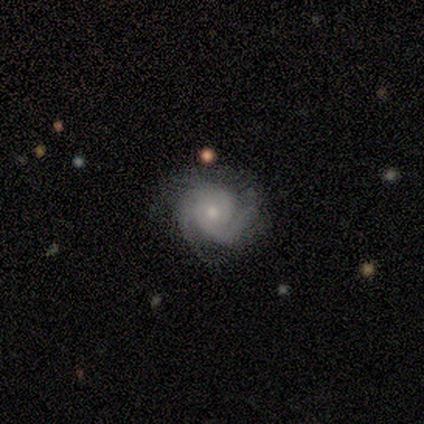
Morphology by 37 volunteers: featured or disk 97%, star or artifact 3%, smooth 0%. Down the decision tree: edge-on disk — no (97%); bar — no (86%); spiral arms — yes (91%); spiral arm count — 3 (44%); spiral winding — tight (62%); bulge size — small (63%); merging — none (72%).